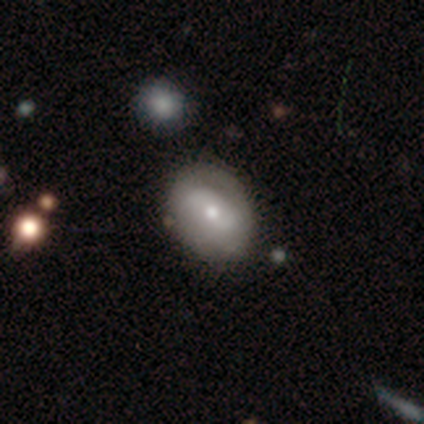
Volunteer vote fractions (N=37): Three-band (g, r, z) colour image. It shows a smooth galaxy with no disk features (59%) that is in between round and cigar-shaped (73%). Merging: none (76%).